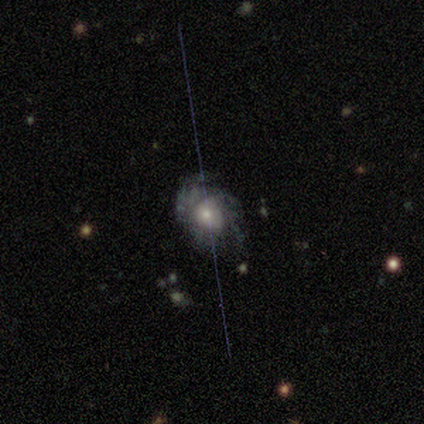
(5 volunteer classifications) Smooth or featured? featured or disk (80%)
Edge-on disk? no (75%)
Bar? no (100%)
Spiral arms? yes (67%)
Spiral winding? tight (50%, tied with medium)
Spiral arm count? 2 (50%, tied with can't tell)
Bulge size? moderate (100%)
Merging? none (80%)